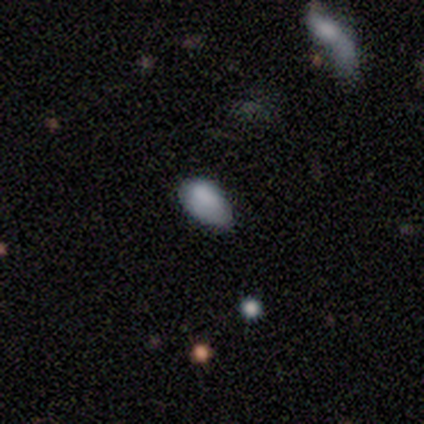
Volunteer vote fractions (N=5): This is likely a smooth galaxy (60%). How rounded: clearly in between (100%). Merging: clearly minor disturbance (80%).